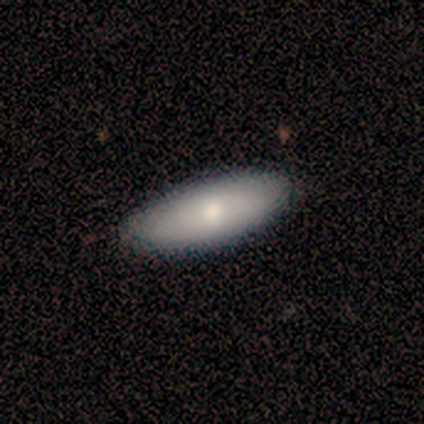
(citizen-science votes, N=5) Smooth or featured? smooth (60%)
How rounded? in between (100%)
Merging? none (75%)